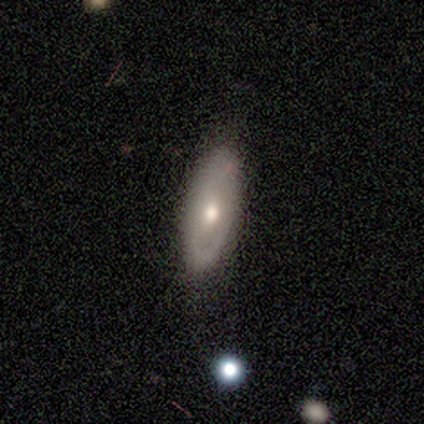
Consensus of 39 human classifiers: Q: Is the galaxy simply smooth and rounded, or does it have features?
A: featured or disk — 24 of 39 (62%).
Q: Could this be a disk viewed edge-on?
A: no — 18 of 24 (75%).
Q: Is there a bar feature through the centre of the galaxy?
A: no — 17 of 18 (94%).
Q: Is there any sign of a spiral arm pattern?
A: no — 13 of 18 (72%).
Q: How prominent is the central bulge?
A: moderate — 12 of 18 (67%).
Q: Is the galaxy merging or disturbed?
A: none — 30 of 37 (81%).